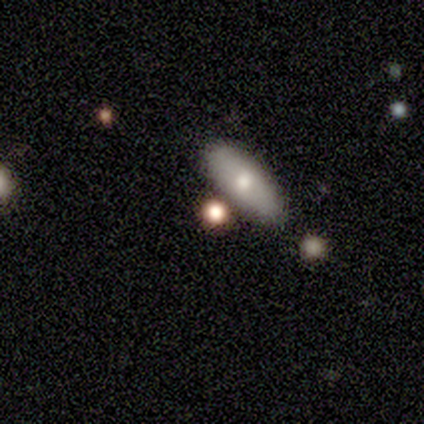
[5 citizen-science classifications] Smooth or featured? 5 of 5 (100%) said smooth. How rounded? 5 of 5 (100%) said in between. Merging? 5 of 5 (100%) said none.